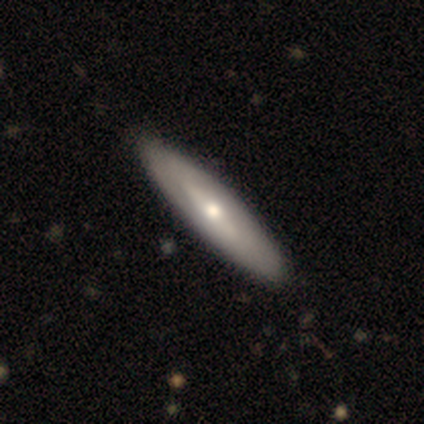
Smooth or featured: featured or disk — 60% (smooth — 40%)
Edge-on disk: no — 100%
Bar: no — 67% (strong — 33%)
Spiral arms: no — 67% (yes — 33%)
Bulge size: moderate — 67% (small — 33%)
Merging: none — 80% (minor disturbance — 20%)